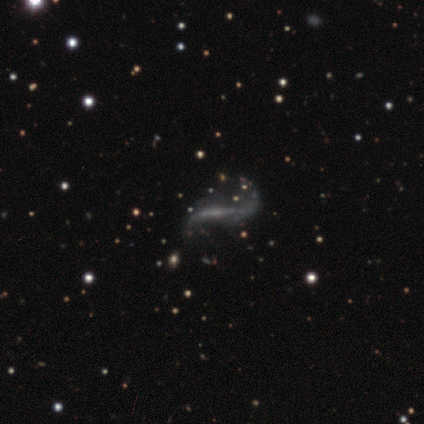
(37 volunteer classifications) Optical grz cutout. It shows a featured or disk galaxy (97%) with a weak bar (36%), 2 (70%) loose (96%) spiral arms (82%) and no central bulge (75%). Merging: none (32%).